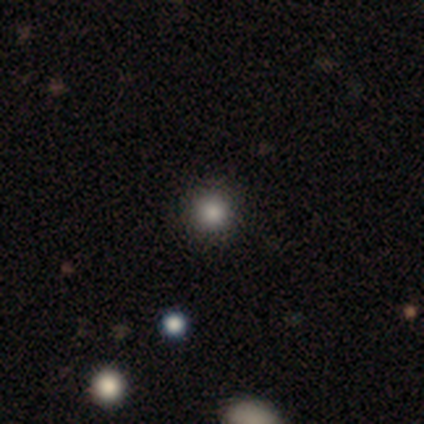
Smooth or featured: smooth — 80% (featured or disk — 20%)
How rounded: round — 100%
Merging: none — 100%